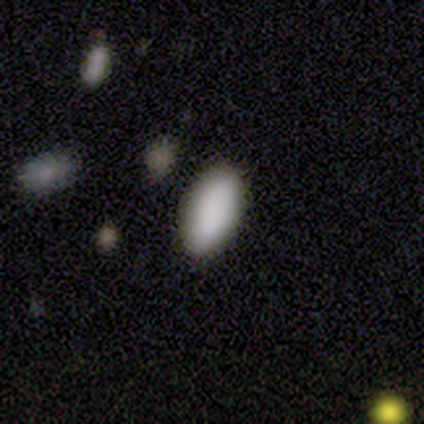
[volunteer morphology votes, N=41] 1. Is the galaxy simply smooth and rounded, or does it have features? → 90% smooth, 7% star or artifact, 2% featured or disk.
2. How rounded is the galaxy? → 95% in between, 5% cigar-shaped, 0% round.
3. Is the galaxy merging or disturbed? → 97% none, 3% minor disturbance, 0% major disturbance, 0% merger.